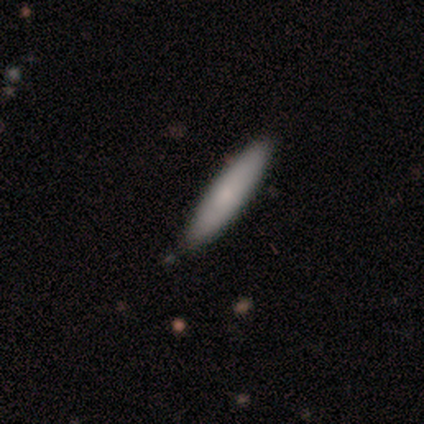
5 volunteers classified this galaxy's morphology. This is likely a smooth galaxy (60%). How rounded: clearly cigar-shaped (100%). Merging: clearly none (100%).